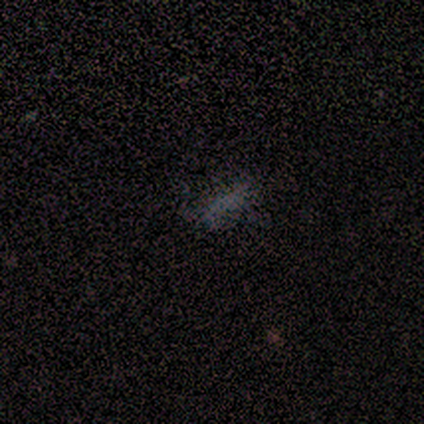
star or artifact 60%, smooth 40%, featured or disk 0%.